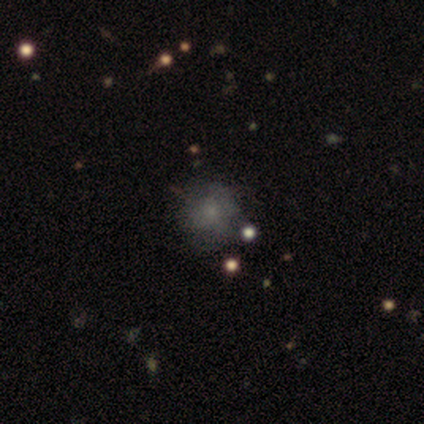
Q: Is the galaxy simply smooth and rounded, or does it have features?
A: smooth — 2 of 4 (50%, tied with star or artifact).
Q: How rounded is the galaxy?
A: round — 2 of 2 (100%).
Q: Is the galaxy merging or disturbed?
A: none — 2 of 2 (100%).